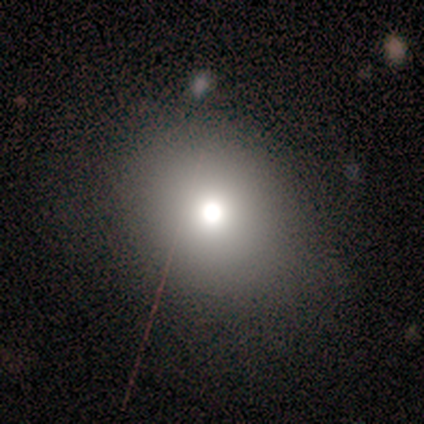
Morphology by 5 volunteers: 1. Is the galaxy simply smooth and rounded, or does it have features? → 100% smooth, 0% featured or disk, 0% star or artifact.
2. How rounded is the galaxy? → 80% round, 20% in between, 0% cigar-shaped.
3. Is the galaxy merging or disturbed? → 100% none, 0% minor disturbance, 0% major disturbance, 0% merger.